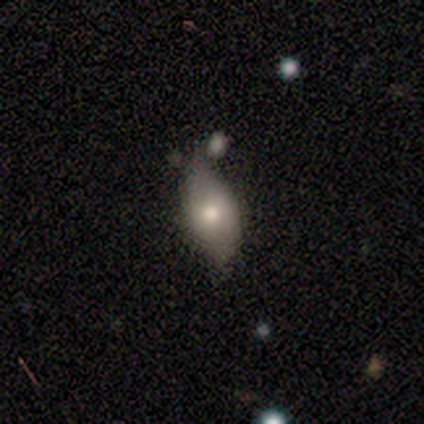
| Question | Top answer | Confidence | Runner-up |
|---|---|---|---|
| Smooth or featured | smooth | 100% | — |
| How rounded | in between | 100% | — |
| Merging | none | 75% | minor disturbance (25%) |